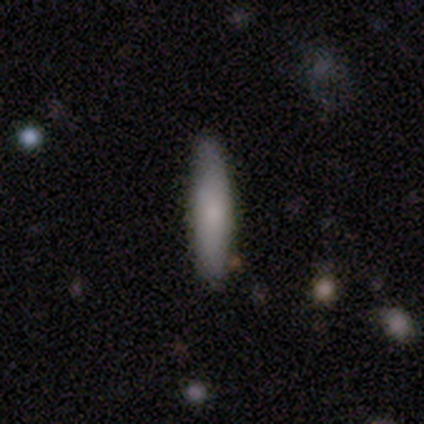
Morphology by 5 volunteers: smooth-or-featured: smooth: 100% | featured or disk: 0% | star or artifact: 0%
  how-rounded: cigar-shaped: 80% | in between: 20% | round: 0%
  merging: none: 100% | minor disturbance: 0% | major disturbance: 0% | merger: 0%